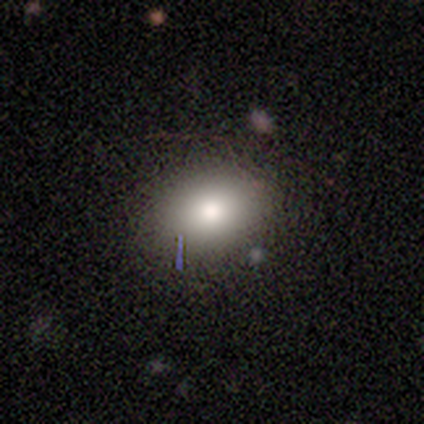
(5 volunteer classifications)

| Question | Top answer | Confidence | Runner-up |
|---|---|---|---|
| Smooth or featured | smooth | 60% | featured or disk (20%) |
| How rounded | round | 100% | — |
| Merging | none | 100% | — |